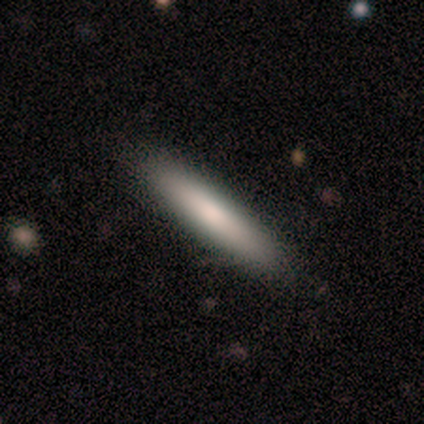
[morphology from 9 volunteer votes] Volunteers were most divided on "merging": none: 78%, minor disturbance: 22%, major disturbance: 0%, merger: 0%. More confident: how rounded — cigar-shaped (100%); smooth or featured — smooth (89%).